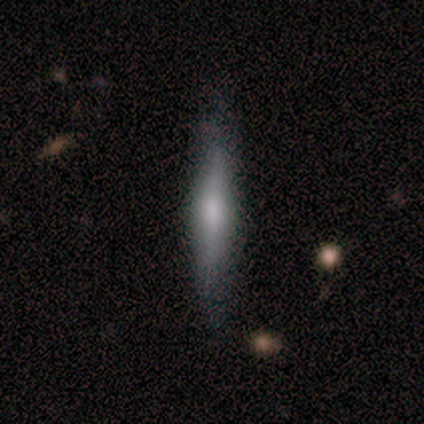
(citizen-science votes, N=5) Smooth or featured? featured or disk (60%)
Edge-on disk? yes (100%)
Edge-on bulge? rounded (100%)
Merging? none (80%)